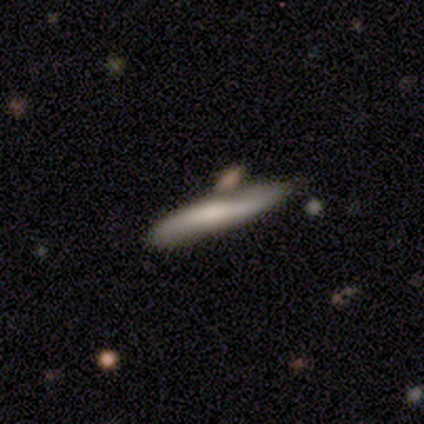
A smooth galaxy with no disk features (60%) that is cigar-shaped (100%). Merging: none (100%).